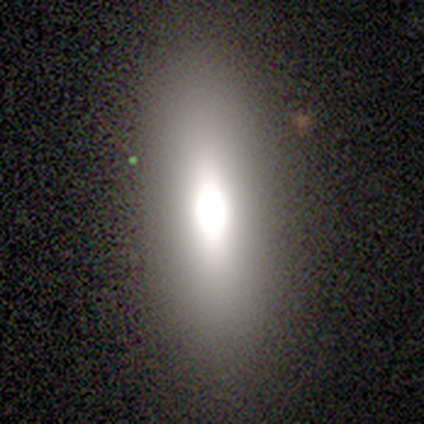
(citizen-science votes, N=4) Smooth or featured? 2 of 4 (50%) said star or artifact.